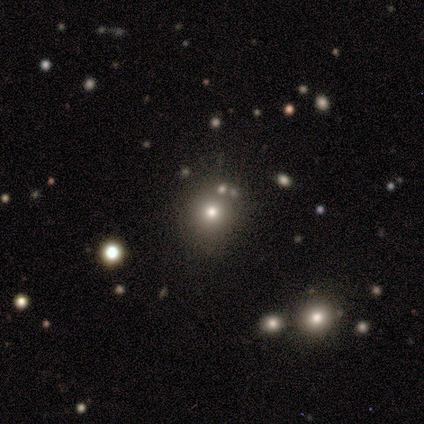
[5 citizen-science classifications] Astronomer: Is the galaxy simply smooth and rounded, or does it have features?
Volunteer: smooth — 80%.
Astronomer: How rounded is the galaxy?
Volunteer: round — 100%.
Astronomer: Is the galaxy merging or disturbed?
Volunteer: none — 75%.